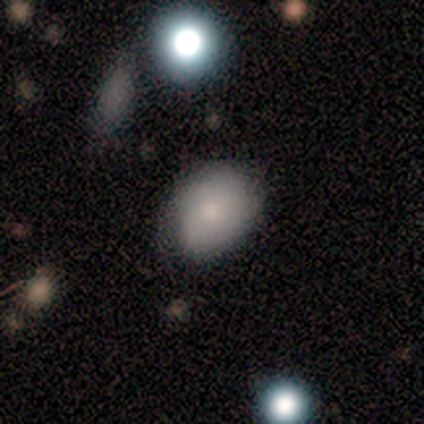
A smooth galaxy with no disk features (77%) that is in between round and cigar-shaped (80%).

Vote fractions:
- Smooth or featured? smooth: 77% / featured or disk: 23% / star or artifact: 0%
- How rounded? in between: 80% / round: 20% / cigar-shaped: 0%
- Merging? none: 100% / minor disturbance: 0% / major disturbance: 0% / merger: 0%